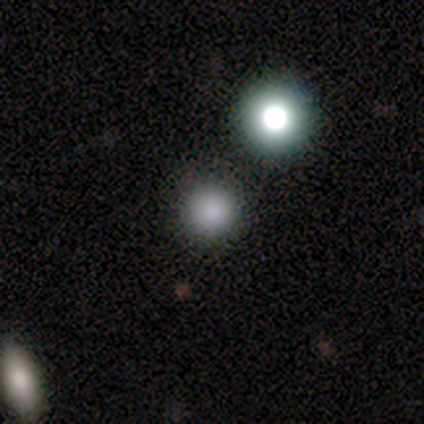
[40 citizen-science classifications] smooth-or-featured: smooth: 80% | star or artifact: 18% | featured or disk: 2%
  how-rounded: round: 100% | in between: 0% | cigar-shaped: 0%
  merging: none: 88% | merger: 9% | minor disturbance: 3% | major disturbance: 0%